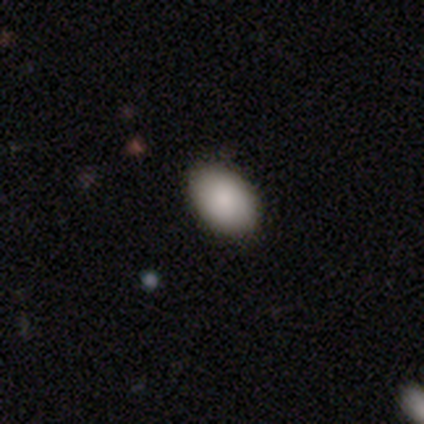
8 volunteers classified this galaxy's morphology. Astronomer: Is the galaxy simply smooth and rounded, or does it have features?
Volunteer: smooth — 75%.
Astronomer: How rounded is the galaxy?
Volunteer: in between — 83%.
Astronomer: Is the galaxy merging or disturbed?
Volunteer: none — 86%.